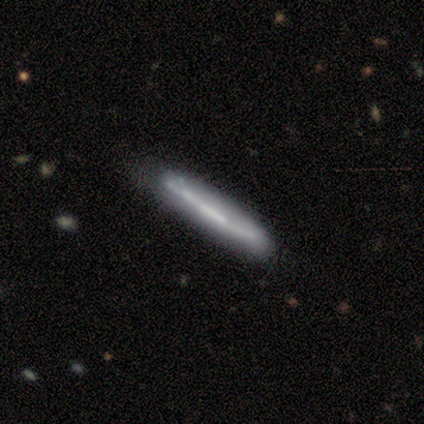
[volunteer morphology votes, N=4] Overall: smooth (50%, tied with featured or disk). How rounded: cigar-shaped (100%). Merging: none (75%).